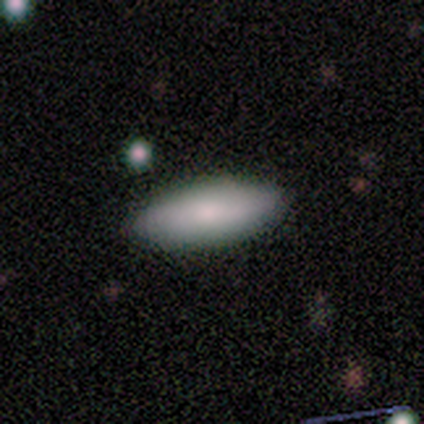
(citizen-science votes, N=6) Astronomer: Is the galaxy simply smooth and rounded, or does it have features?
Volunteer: smooth — 100%.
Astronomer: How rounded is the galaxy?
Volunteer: in between — 100%.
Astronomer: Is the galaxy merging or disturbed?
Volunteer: none — 100%.